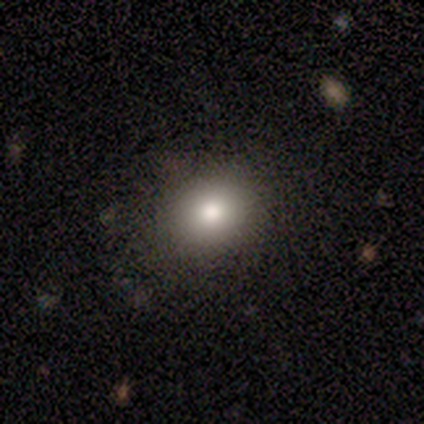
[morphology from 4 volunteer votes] Smooth or featured?
  - smooth: 75% *
  - star or artifact: 25%
  - featured or disk: 0%
How rounded?
  - round: 67% *
  - in between: 33%
  - cigar-shaped: 0%
Merging?
  - none: 67% *
  - major disturbance: 33%
  - minor disturbance: 0%
  - merger: 0%